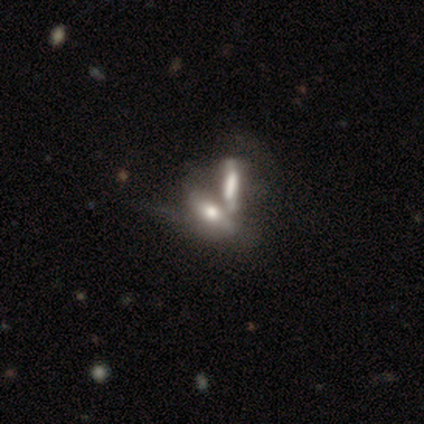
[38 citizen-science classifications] Smooth or featured: featured or disk — 53% (smooth — 42%)
Edge-on disk: no — 65% (yes — 35%)
Bar: strong — 38% (tied with no — 38%)
Spiral arms: no — 77% (yes — 23%)
Bulge size: large — 38% (moderate — 31%)
Merging: merger — 67% (minor disturbance — 6%)